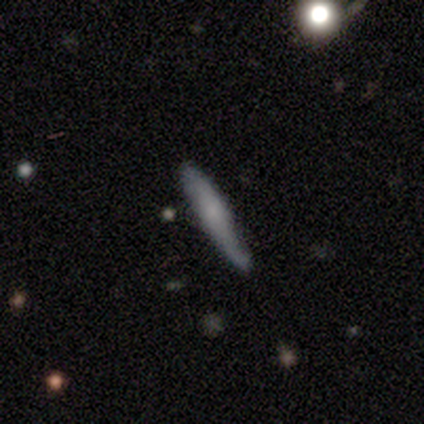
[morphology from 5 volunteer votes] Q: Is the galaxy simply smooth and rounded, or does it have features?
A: featured or disk — 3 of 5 (60%).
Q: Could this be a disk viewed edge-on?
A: yes — 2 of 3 (67%).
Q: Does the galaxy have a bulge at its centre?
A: rounded — 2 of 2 (100%).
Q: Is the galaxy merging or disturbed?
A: none — 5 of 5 (100%).